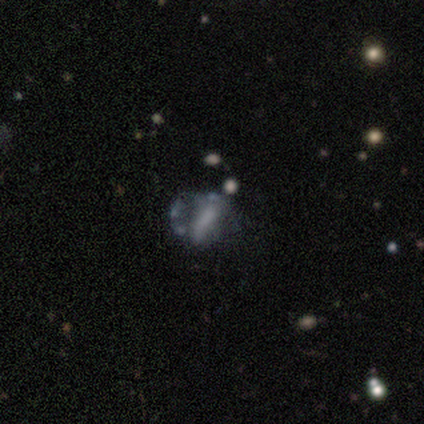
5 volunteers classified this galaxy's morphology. Q: Smooth or featured?
A: featured or disk (40%); tied with: star or artifact (40%)
Q: Edge-on disk?
A: no (100%)
Q: Bar?
A: no (100%)
Q: Spiral arms?
A: no (100%)
Q: Bulge size?
A: none (100%)
Q: Merging?
A: minor disturbance (33%); tied with: major disturbance (33%); merger (33%)